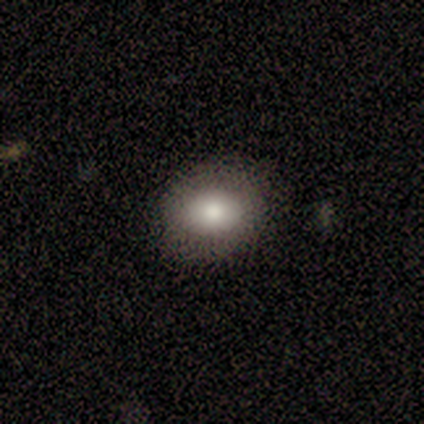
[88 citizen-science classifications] Overall: smooth (78%). How rounded: round (49%; in between 46%). Merging: none (82%).